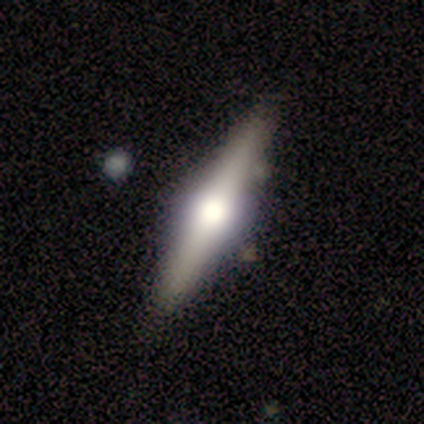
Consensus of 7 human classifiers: Q: Smooth or featured?
A: featured or disk (71%); runner-up: smooth (14%)
Q: Edge-on disk?
A: yes (100%)
Q: Edge-on bulge?
A: rounded (100%)
Q: Merging?
A: none (100%)